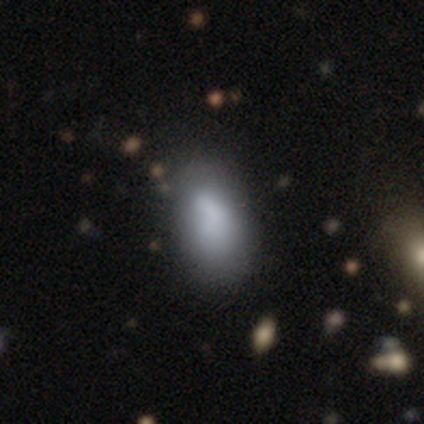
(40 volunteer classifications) Smooth or featured? 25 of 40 (62%) said smooth. How rounded? 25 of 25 (100%) said in between. Merging? 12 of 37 (32%) said none.